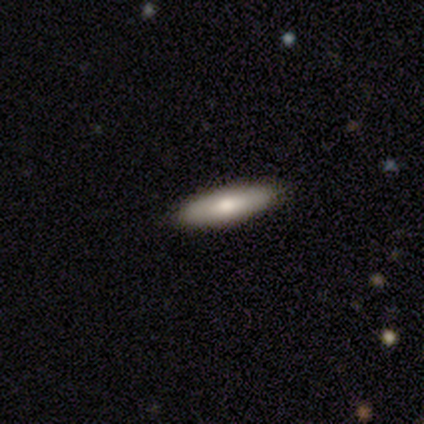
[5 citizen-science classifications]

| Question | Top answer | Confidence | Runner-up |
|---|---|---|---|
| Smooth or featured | smooth | 80% | featured or disk (20%) |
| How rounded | cigar-shaped | 75% | in between (25%) |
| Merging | none | 60% | minor disturbance (40%) |